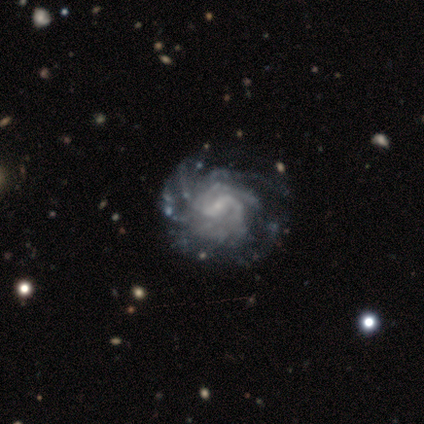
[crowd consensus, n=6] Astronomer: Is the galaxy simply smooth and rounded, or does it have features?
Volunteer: featured or disk — 100%.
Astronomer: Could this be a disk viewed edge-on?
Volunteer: no — 100%.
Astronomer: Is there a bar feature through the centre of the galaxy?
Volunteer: weak — 67%.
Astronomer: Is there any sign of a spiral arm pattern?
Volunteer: yes — 100%.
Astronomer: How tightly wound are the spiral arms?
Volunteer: medium — 67%.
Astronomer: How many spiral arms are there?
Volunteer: can't tell — 83%.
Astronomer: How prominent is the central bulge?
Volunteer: small — 67%.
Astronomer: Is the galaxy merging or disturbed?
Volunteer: minor disturbance — 50% (runner-up: none, 33%).